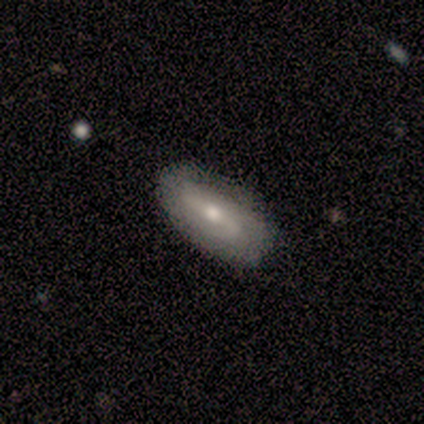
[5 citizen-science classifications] A featured or disk galaxy (100%) with a strong bar (50%), 2 (67%) loose (67%) spiral arms (75%) and a moderate central bulge (50%). Merging: none (80%).